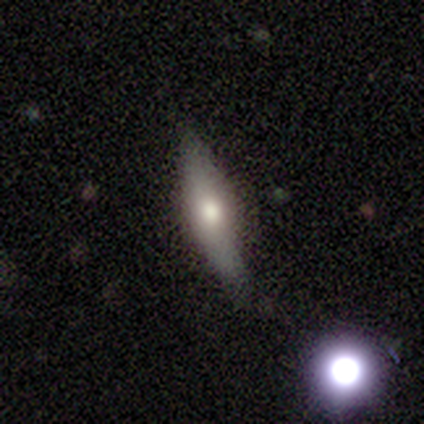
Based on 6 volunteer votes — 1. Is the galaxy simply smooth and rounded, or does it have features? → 67% featured or disk, 33% smooth, 0% star or artifact.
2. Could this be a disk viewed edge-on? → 50% yes (tied), 50% no (tied).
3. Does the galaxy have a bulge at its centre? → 100% rounded, 0% boxy, 0% none.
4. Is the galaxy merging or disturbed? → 83% none, 17% minor disturbance, 0% major disturbance, 0% merger.